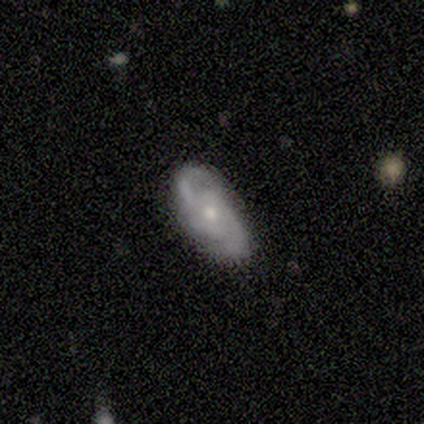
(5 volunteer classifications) smooth-or-featured: featured or disk: 60% | smooth: 20% | star or artifact: 20%
  disk-edge-on: no: 100% | yes: 0%
    bar: no: 100% | strong: 0% | weak: 0%
    has-spiral-arms: yes: 100% | no: 0%
      spiral-winding: tight: 67% | medium: 33% | loose: 0%
      spiral-arm-count: 2: 67% | can't tell: 33% | 1: 0% | 3: 0% | 4: 0% | more than 4: 0%
    bulge-size: moderate: 67% | small: 33% | dominant: 0% | large: 0% | none: 0%
  merging: none: 75% | minor disturbance: 25% | major disturbance: 0% | merger: 0%